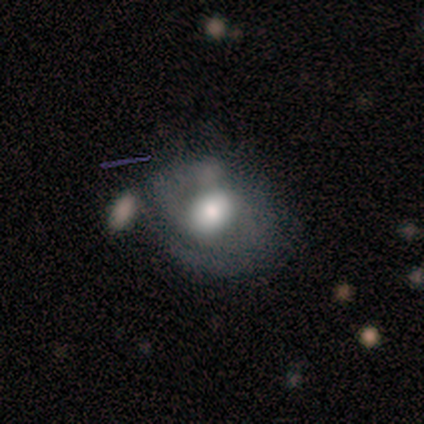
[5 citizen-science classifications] Smooth or featured? 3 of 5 (60%) said featured or disk. Edge-on disk? 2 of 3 (67%) said no. Bar? 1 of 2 (50%, tied with no) said weak. Spiral arms? 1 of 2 (50%, tied with no) said yes. Spiral winding? 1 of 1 (100%) said loose. Spiral arm count? 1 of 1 (100%) said 2. Bulge size? 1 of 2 (50%, tied with moderate) said large. Merging? 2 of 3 (67%) said minor disturbance.